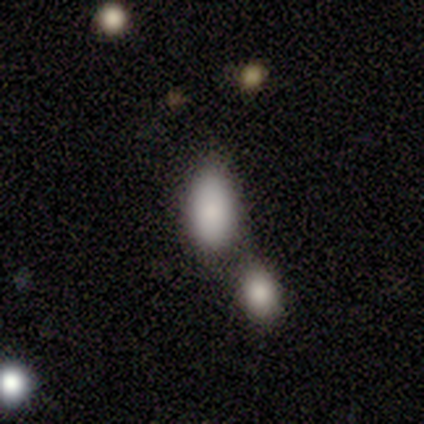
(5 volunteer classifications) A smooth galaxy with no disk features (100%) that is in between round and cigar-shaped (60%).

Vote fractions:
- Smooth or featured? smooth: 100% / featured or disk: 0% / star or artifact: 0%
- How rounded? in between: 60% / round: 20% / cigar-shaped: 20%
- Merging? none: 60% / minor disturbance: 40% / major disturbance: 0% / merger: 0%